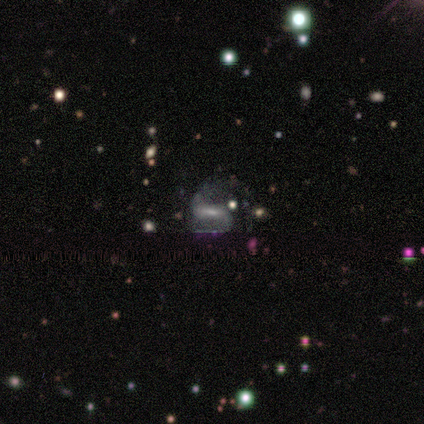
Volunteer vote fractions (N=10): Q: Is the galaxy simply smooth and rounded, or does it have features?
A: featured or disk — 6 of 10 (60%).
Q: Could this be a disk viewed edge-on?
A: no — 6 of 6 (100%).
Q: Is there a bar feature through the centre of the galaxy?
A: strong — 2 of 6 (33%, tied with weak and no).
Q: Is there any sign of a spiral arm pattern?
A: yes — 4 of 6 (67%).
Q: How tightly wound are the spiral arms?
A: medium — 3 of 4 (75%).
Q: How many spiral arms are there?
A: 2 — 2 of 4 (50%, tied with 3).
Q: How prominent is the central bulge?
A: moderate — 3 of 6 (50%).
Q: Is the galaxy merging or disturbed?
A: none — 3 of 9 (33%, tied with major disturbance).